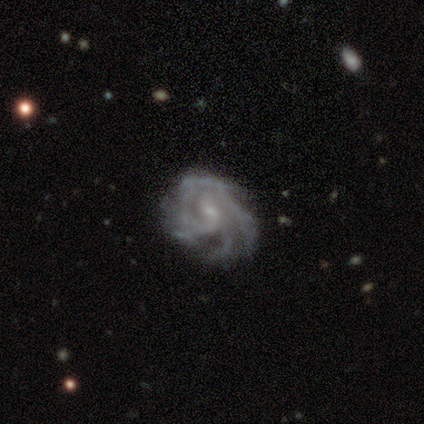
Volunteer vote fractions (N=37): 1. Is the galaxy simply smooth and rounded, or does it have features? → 81% featured or disk, 16% star or artifact, 3% smooth.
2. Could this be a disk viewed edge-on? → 100% no, 0% yes.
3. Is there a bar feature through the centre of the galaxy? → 57% weak, 37% no, 7% strong.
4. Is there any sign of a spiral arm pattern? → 100% yes, 0% no.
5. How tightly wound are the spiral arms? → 50% tight, 47% medium, 3% loose.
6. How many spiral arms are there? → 40% 3, 23% 4, 17% can't tell, 13% more than 4, 3% 1, 3% 2.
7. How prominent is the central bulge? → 77% small, 17% moderate, 7% none, 0% dominant, 0% large.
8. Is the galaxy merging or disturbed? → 68% none, 19% minor disturbance, 13% major disturbance, 0% merger.